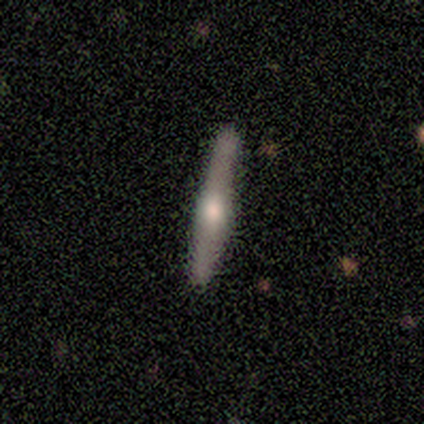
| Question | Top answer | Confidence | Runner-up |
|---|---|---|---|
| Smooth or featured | featured or disk | 100% | — |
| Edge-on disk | yes | 100% | — |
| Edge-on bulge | rounded | 100% | — |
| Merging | none | 100% | — |